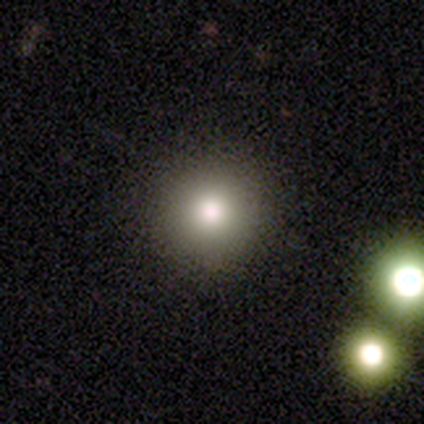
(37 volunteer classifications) Overall: smooth (84%). How rounded: round (100%). Merging: none (94%).